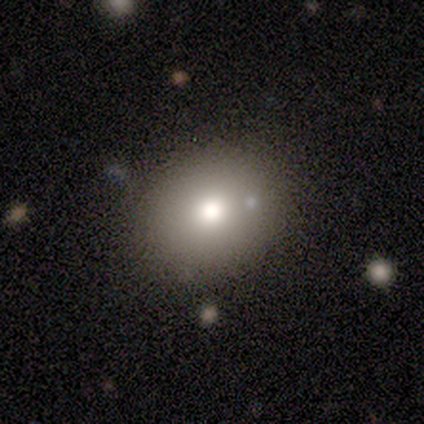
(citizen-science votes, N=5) This appears to be a smooth galaxy with no disk features (80%) that is round (50%, tied with in between). Merging: none (100%).